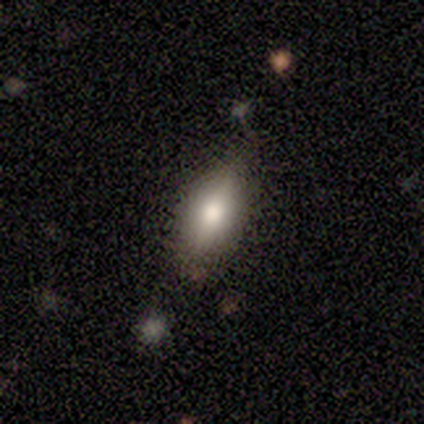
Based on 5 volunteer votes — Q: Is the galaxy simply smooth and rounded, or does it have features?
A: smooth — 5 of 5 (100%).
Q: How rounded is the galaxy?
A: in between — 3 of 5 (60%).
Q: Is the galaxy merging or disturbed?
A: minor disturbance — 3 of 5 (60%).